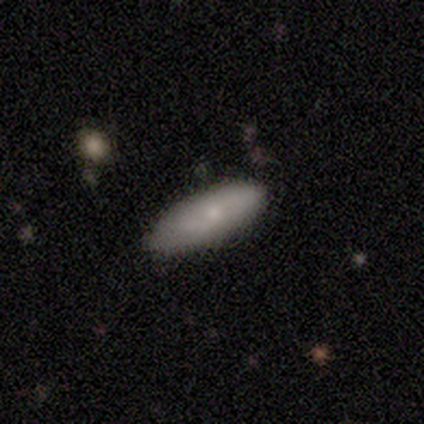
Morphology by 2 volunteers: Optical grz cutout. It shows a smooth galaxy with no disk features (100%) that is cigar-shaped (100%). Merging: none (100%).